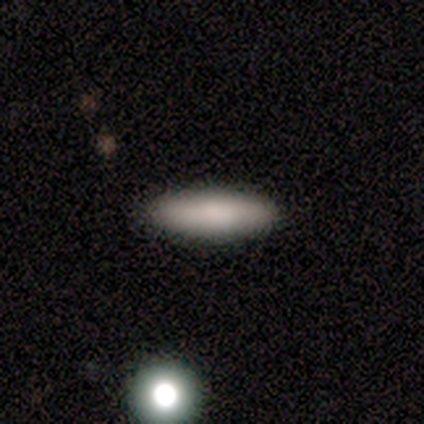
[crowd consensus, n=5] Overall: smooth (60%; featured or disk 20%). How rounded: cigar-shaped (67%; in between 33%). Merging: none (100%).